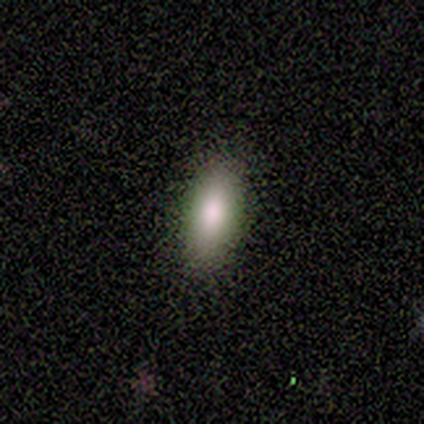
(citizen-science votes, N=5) This appears to be a smooth galaxy with no disk features (80%) that is in between round and cigar-shaped (100%). Merging: none (100%).